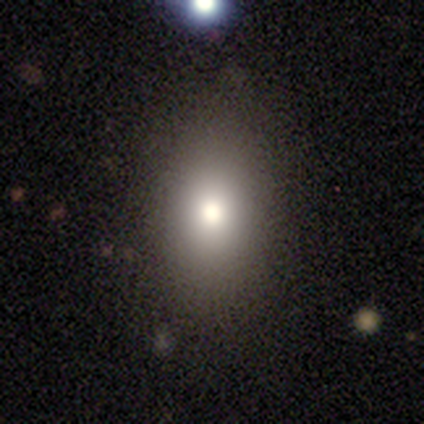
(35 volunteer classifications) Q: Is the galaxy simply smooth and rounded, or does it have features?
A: smooth — 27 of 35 (77%).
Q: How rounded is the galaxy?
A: in between — 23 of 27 (85%).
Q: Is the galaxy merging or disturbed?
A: none — 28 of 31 (90%).